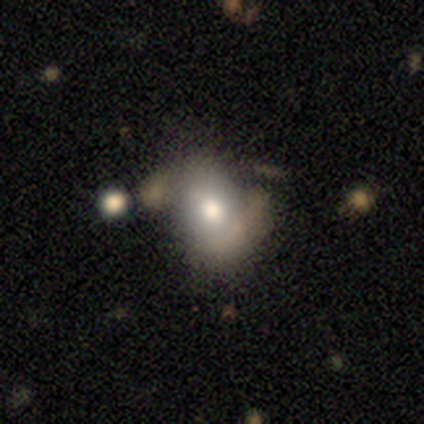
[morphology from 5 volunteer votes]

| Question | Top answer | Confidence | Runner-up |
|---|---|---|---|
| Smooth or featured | smooth | 80% | featured or disk (20%) |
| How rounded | in between | 100% | — |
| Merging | none | 80% | minor disturbance (20%) |